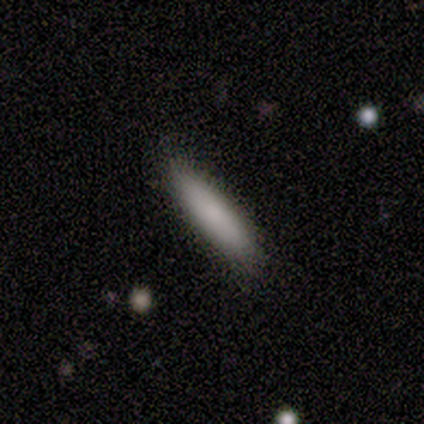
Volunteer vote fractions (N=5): Overall: smooth (80%). How rounded: cigar-shaped (75%). Merging: none (60%; minor disturbance 20%).